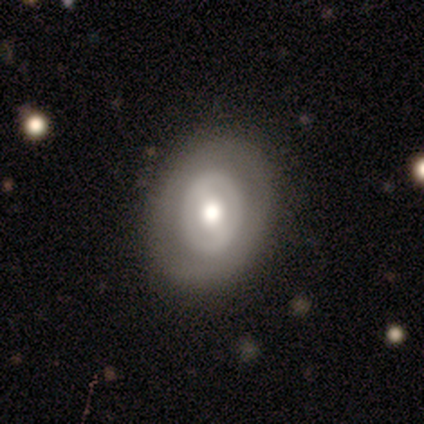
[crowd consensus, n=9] Volunteers were most divided on "bar": no: 60%, strong: 40%, weak: 0%. More confident: edge-on disk — no (100%); spiral arms — no (80%); bulge size — moderate (80%); merging — none (75%); smooth or featured — featured or disk (56%).